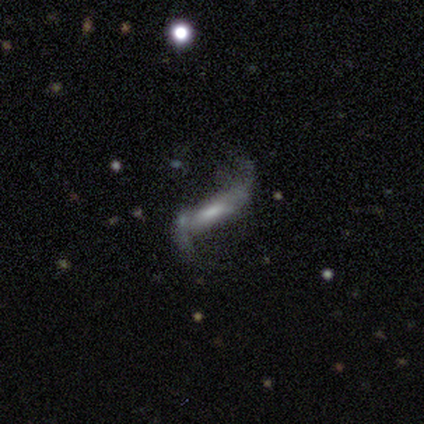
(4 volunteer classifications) Smooth or featured? 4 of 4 (100%) said featured or disk. Edge-on disk? 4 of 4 (100%) said no. Bar? 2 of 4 (50%) said strong. Spiral arms? 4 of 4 (100%) said yes. Spiral winding? 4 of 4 (100%) said loose. Spiral arm count? 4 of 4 (100%) said 2. Bulge size? 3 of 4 (75%) said small. Merging? 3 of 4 (75%) said none.